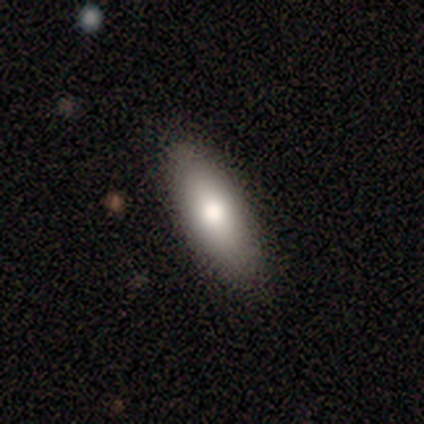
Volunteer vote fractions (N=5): A smooth galaxy with no disk features (100%) that is cigar-shaped (60%). Merging: none (100%).